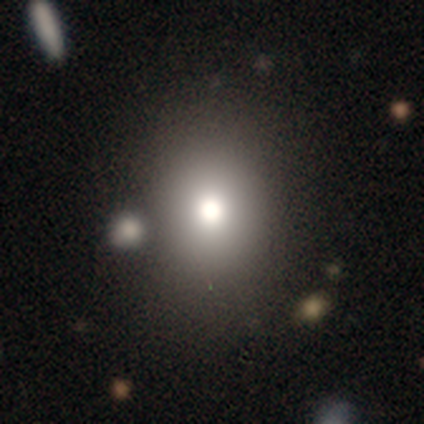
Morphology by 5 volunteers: smooth-or-featured: star or artifact: 60% | smooth: 40% | featured or disk: 0%